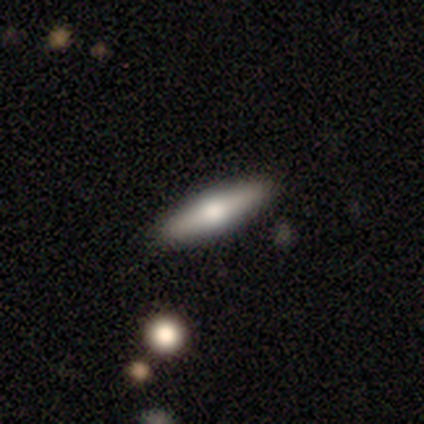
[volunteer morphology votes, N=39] This appears to be a featured or disk galaxy (51%) viewed edge-on (100%) with a rounded central bulge (90%). Merging: none (95%).